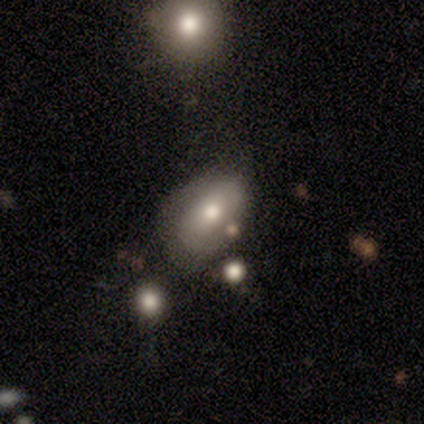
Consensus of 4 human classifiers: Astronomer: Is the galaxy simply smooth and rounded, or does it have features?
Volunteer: smooth — 100%.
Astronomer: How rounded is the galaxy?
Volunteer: in between — 100%.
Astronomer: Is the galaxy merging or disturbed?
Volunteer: none — 50%, tied with minor disturbance at 50%.